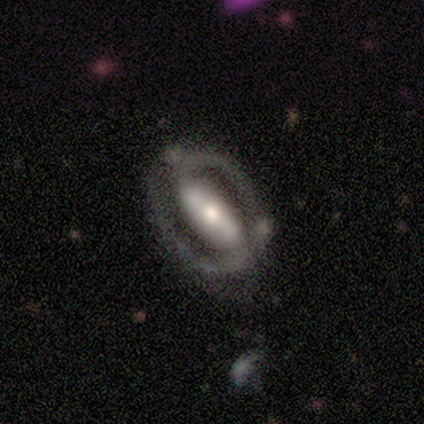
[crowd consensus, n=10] Smooth or featured?
  - featured or disk: 80% *
  - smooth: 10%
  - star or artifact: 10%
Edge-on disk?
  - no: 100% *
  - yes: 0%
Bar?
  - strong: 75% *
  - no: 25%
  - weak: 0%
Spiral arms?
  - no: 62% *
  - yes: 38%
Bulge size?
  - moderate: 62% *
  - large: 25%
  - dominant: 12%
  - small: 0%
  - none: 0%
Merging?
  - none: 78% *
  - minor disturbance: 11%
  - merger: 11%
  - major disturbance: 0%